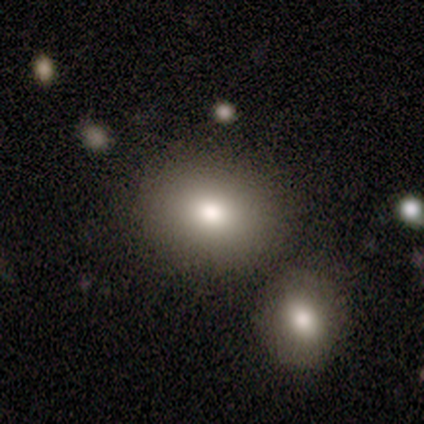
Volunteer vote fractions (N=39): Morphology: type=smooth (79%); roundness=in between (52%); merging=none (71%).